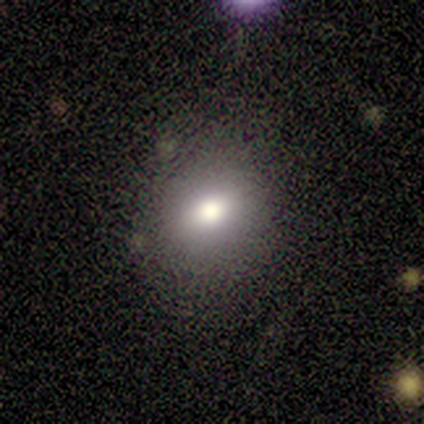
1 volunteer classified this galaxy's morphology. A star or artifact, not a galaxy (100%).

Vote fractions:
- Smooth or featured? star or artifact: 100% / smooth: 0% / featured or disk: 0%